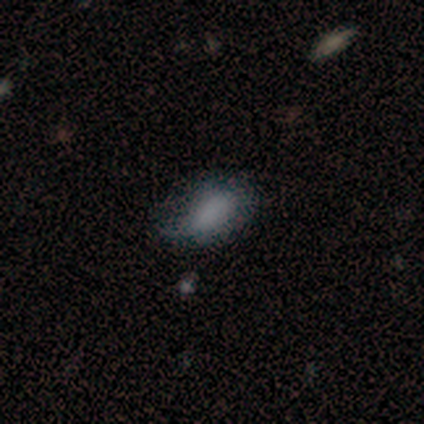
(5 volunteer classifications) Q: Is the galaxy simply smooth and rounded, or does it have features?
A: smooth — 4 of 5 (80%).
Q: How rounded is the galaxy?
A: in between — 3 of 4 (75%).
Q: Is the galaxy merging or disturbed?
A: none — 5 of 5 (100%).